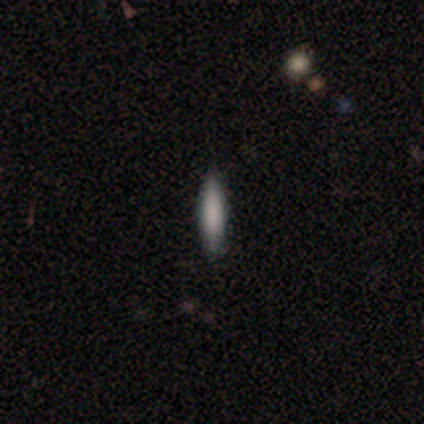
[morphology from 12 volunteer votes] Smooth or featured?
  - smooth: 92% *
  - featured or disk: 8%
  - star or artifact: 0%
How rounded?
  - cigar-shaped: 73% *
  - in between: 27%
  - round: 0%
Merging?
  - none: 100% *
  - minor disturbance: 0%
  - major disturbance: 0%
  - merger: 0%